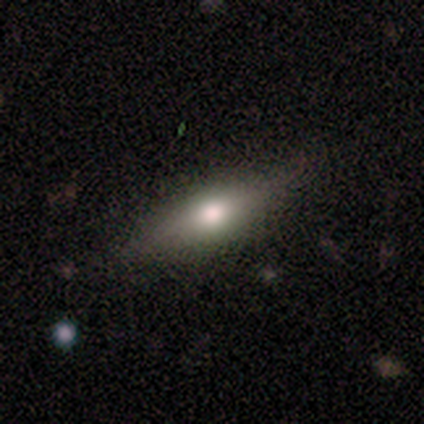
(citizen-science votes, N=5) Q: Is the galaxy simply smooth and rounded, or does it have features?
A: smooth — 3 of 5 (60%).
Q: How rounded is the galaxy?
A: in between — 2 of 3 (67%).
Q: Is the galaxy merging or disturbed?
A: none — 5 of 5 (100%).